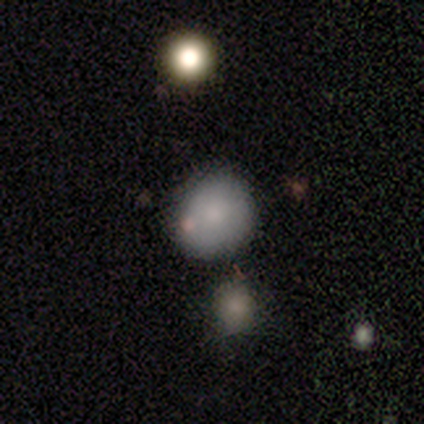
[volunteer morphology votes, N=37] smooth-or-featured: smooth: 84% | star or artifact: 14% | featured or disk: 3%
  how-rounded: round: 71% | in between: 23% | cigar-shaped: 6%
  merging: none: 69% | minor disturbance: 19% | merger: 9% | major disturbance: 3%